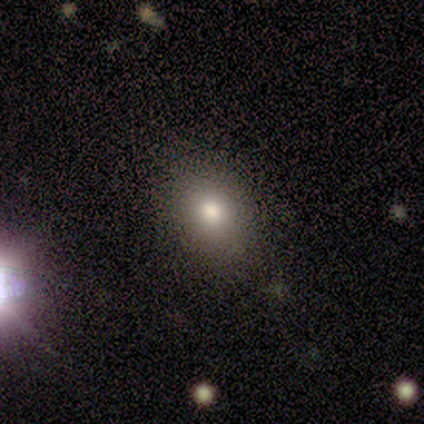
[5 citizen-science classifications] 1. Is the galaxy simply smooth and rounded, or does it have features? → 60% smooth, 40% star or artifact, 0% featured or disk.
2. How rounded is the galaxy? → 67% in between, 33% cigar-shaped, 0% round.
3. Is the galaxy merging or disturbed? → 33% minor disturbance (tied), 33% major disturbance (tied), 33% merger (tied), 0% none.